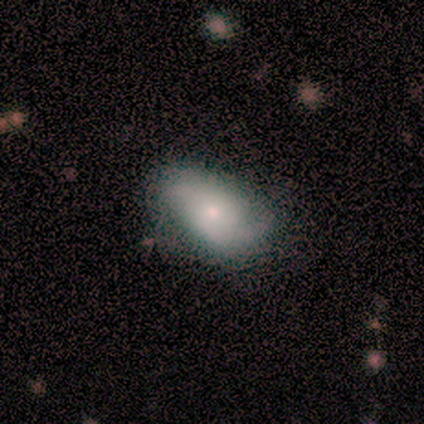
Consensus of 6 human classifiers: Smooth or featured?
  - smooth: 50% * (tied)
  - featured or disk: 50% * (tied)
  - star or artifact: 0%
How rounded?
  - in between: 100% *
  - round: 0%
  - cigar-shaped: 0%
Merging?
  - none: 83% *
  - major disturbance: 17%
  - minor disturbance: 0%
  - merger: 0%